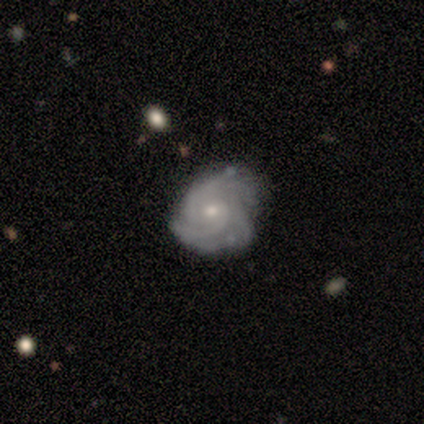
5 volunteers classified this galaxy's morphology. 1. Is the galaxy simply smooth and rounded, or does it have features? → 80% featured or disk, 20% smooth, 0% star or artifact.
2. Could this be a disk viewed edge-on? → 100% no, 0% yes.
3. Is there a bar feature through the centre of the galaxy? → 75% no, 25% weak, 0% strong.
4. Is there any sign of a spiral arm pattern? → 100% yes, 0% no.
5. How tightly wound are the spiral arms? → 75% tight, 25% medium, 0% loose.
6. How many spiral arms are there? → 50% 3, 25% 2, 25% more than 4, 0% 1, 0% 4, 0% can't tell.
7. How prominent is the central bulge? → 50% moderate (tied), 50% small (tied), 0% dominant, 0% large, 0% none.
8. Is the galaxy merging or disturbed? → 100% none, 0% minor disturbance, 0% major disturbance, 0% merger.